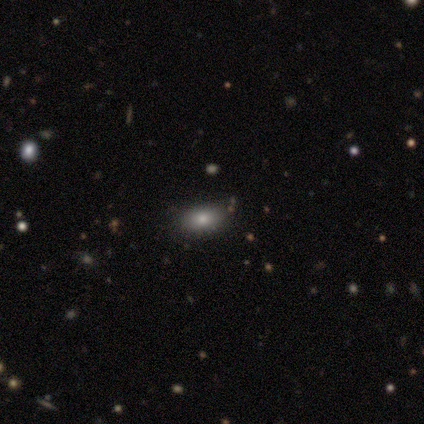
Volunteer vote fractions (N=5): Overall: smooth (40%, tied with featured or disk). How rounded: round (50%, tied with in between). Merging: none (50%; minor disturbance 25%).